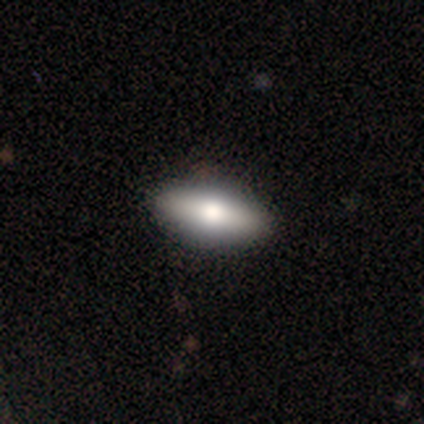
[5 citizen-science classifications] smooth 40% (tied), star or artifact 40% (tied), featured or disk 20%. Down the decision tree: how rounded — round (50%, tied with in between); merging — minor disturbance (67%).